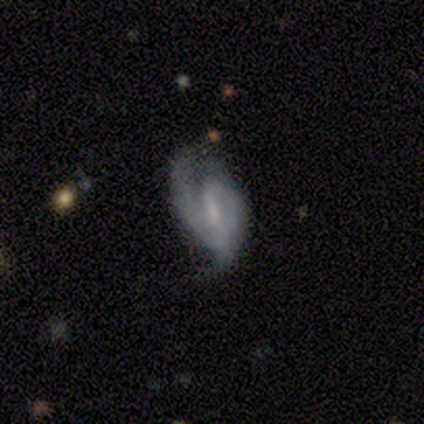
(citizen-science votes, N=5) This is clearly a featured or disk galaxy (100%). It is clearly not viewed edge-on (100%). Bar: marginally strong (40%, tied with weak). Spiral arm pattern: clearly yes (100%). Spiral arm count: clearly 2 (80%). Spiral winding: clearly medium (80%). Central bulge: marginally small (40%, tied with none). Merging: likely none (60%).